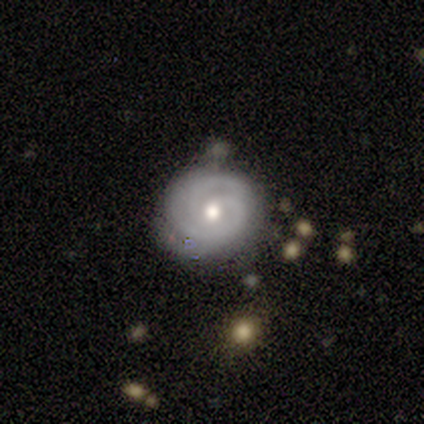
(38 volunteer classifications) Smooth or featured: featured or disk — 82% (smooth — 11%)
Edge-on disk: no — 100%
Bar: no — 68% (weak — 29%)
Spiral arms: yes — 90% (no — 10%)
Spiral winding: tight — 79% (medium — 14%)
Spiral arm count: 2 — 54% (3 — 21%)
Bulge size: moderate — 68% (small — 26%)
Merging: none — 77% (minor disturbance — 20%)